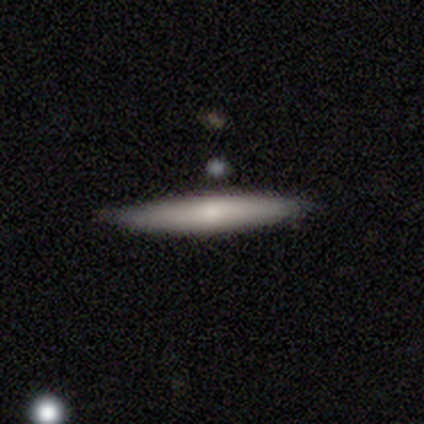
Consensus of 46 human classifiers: Smooth or featured?
  - smooth: 61% *
  - featured or disk: 30%
  - star or artifact: 9%
How rounded?
  - cigar-shaped: 96% *
  - in between: 4%
  - round: 0%
Merging?
  - none: 83% *
  - minor disturbance: 14%
  - major disturbance: 2%
  - merger: 0%